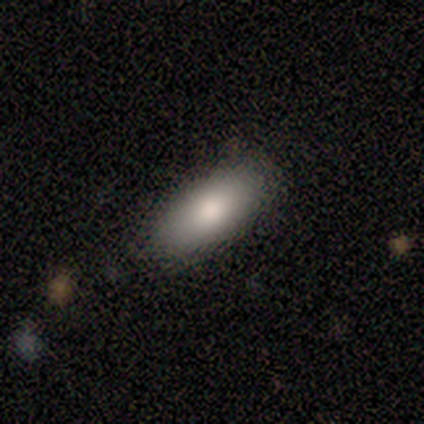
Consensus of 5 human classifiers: Morphology: type=smooth (80%); roundness=in between (75%); merging=none (75%).